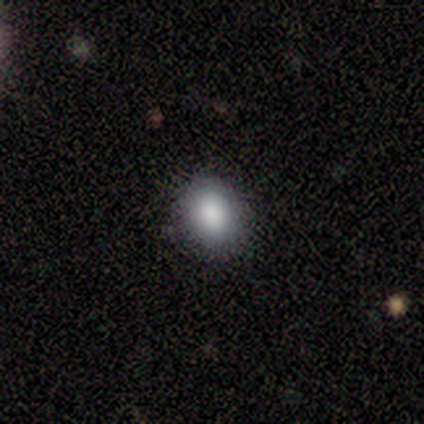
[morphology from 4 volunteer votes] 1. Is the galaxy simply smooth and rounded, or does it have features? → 100% smooth, 0% featured or disk, 0% star or artifact.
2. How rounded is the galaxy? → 50% round (tied), 50% in between (tied), 0% cigar-shaped.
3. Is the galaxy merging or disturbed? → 75% none, 25% minor disturbance, 0% major disturbance, 0% merger.